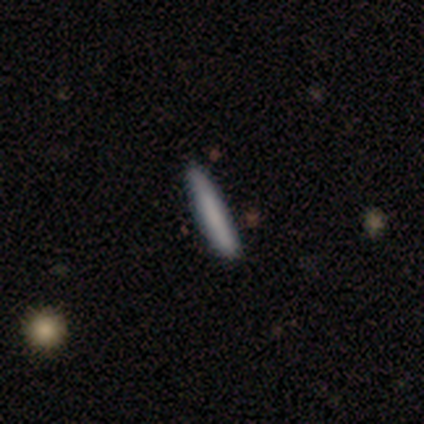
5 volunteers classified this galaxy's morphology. smooth_or_featured: smooth (p=0.80) [alt: featured or disk p=0.20]
how_rounded: cigar-shaped (p=1.00)
merging: none (p=0.80) [alt: minor disturbance p=0.20]